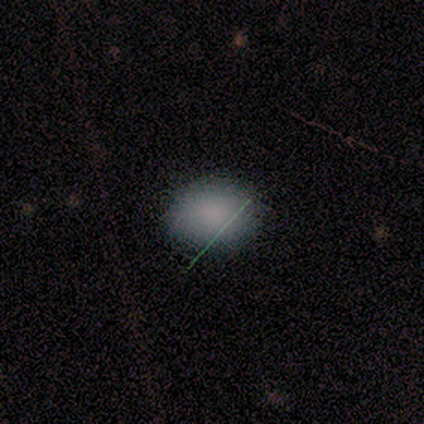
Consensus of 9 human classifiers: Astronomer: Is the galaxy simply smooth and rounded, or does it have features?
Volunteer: smooth — 89%.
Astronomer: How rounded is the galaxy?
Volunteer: in between — 62%.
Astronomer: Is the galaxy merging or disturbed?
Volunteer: none — 62%.